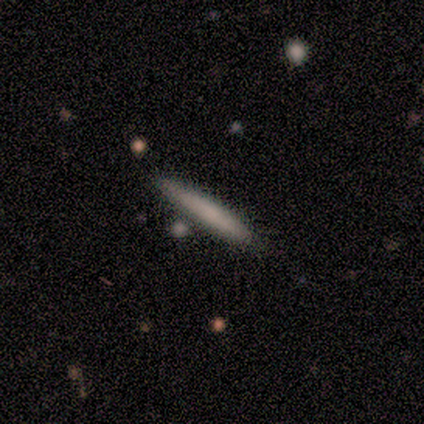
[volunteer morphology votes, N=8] This is likely a smooth galaxy (62%). How rounded: clearly cigar-shaped (100%). Merging: clearly none (100%).